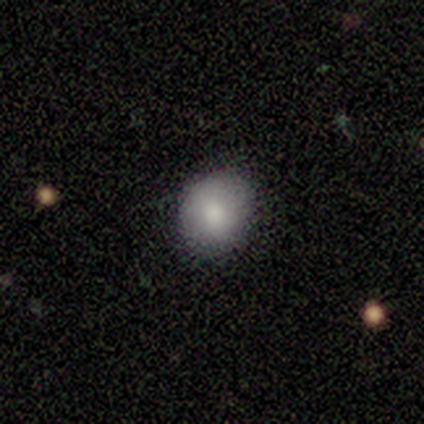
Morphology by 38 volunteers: Smooth or featured?
  - smooth: 79% *
  - star or artifact: 16%
  - featured or disk: 5%
How rounded?
  - round: 57% *
  - in between: 40%
  - cigar-shaped: 3%
Merging?
  - none: 84% *
  - minor disturbance: 9%
  - major disturbance: 6%
  - merger: 0%